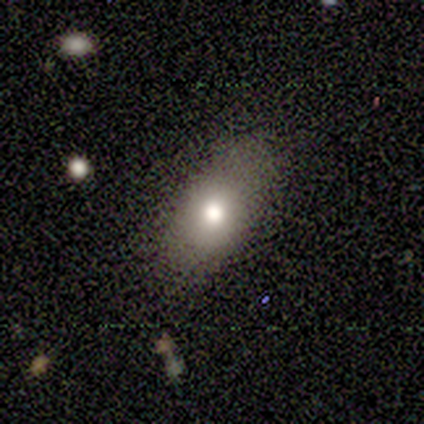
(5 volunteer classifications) smooth_or_featured: smooth (p=1.00)
how_rounded: in between (p=0.80) [alt: round p=0.20]
merging: none (p=1.00)